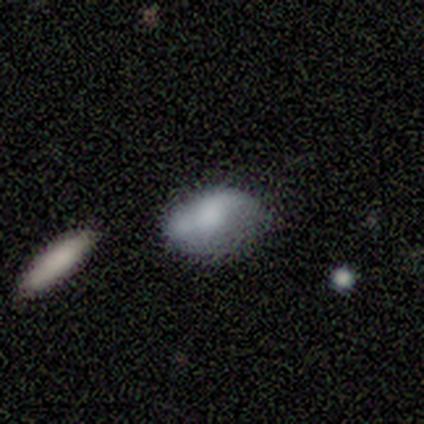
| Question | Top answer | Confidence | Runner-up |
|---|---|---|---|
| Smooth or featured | featured or disk | 80% | smooth (20%) |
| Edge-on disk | no | 100% | — |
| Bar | no | 100% | — |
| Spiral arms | no | 100% | — |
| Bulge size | moderate | 50% | large (25%) |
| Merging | minor disturbance | 80% | merger (20%) |